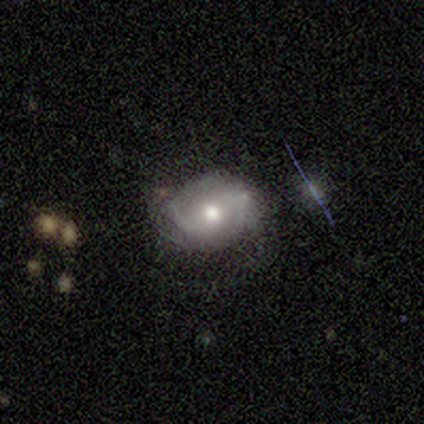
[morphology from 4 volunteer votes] Smooth or featured?
  - featured or disk: 75% *
  - smooth: 25%
  - star or artifact: 0%
Edge-on disk?
  - no: 100% *
  - yes: 0%
Bar?
  - strong: 33% * (tied)
  - weak: 33% * (tied)
  - no: 33% * (tied)
Spiral arms?
  - yes: 67% *
  - no: 33%
Spiral winding?
  - tight: 50% * (tied)
  - medium: 50% * (tied)
  - loose: 0%
Spiral arm count?
  - 2: 100% *
  - 1: 0%
  - 3: 0%
  - 4: 0%
  - more than 4: 0%
  - can't tell: 0%
Bulge size?
  - moderate: 67% *
  - small: 33%
  - dominant: 0%
  - large: 0%
  - none: 0%
Merging?
  - none: 50% *
  - minor disturbance: 25%
  - major disturbance: 25%
  - merger: 0%